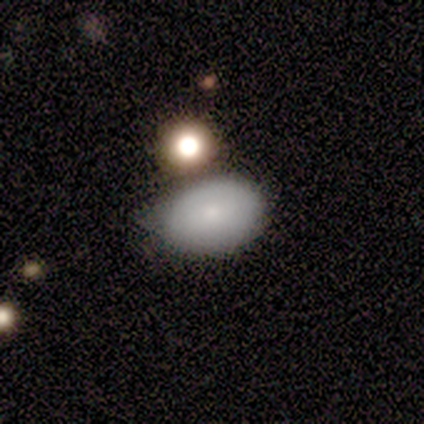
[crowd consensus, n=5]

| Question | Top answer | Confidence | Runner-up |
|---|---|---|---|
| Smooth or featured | smooth | 60% | featured or disk (40%) |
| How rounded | in between | 100% | — |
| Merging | none | 60% | minor disturbance (40%) |